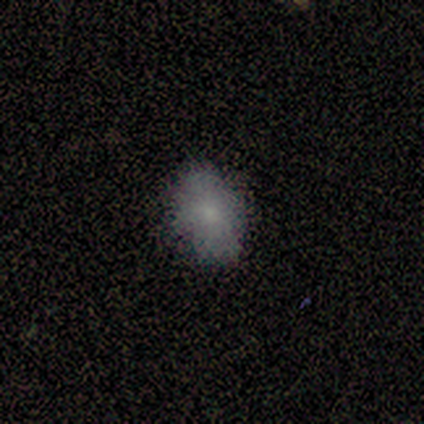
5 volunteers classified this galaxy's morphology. Q: Smooth or featured?
A: smooth (80%); runner-up: featured or disk (20%)
Q: How rounded?
A: in between (75%); runner-up: round (25%)
Q: Merging?
A: none (100%)